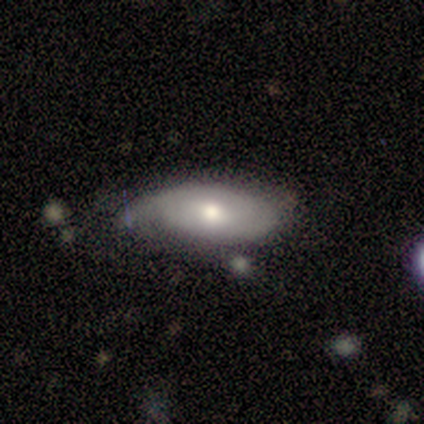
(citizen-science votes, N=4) Smooth or featured?
  - smooth: 50% * (tied)
  - featured or disk: 50% * (tied)
  - star or artifact: 0%
How rounded?
  - in between: 100% *
  - round: 0%
  - cigar-shaped: 0%
Merging?
  - none: 75% *
  - minor disturbance: 25%
  - major disturbance: 0%
  - merger: 0%